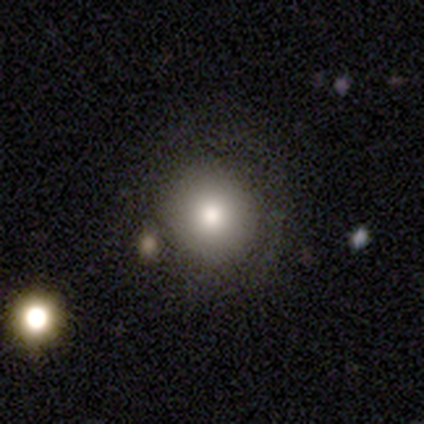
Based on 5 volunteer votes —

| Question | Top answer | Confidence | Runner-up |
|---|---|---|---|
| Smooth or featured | smooth | 80% | featured or disk (20%) |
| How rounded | round | 75% | in between (25%) |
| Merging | none | 80% | major disturbance (20%) |